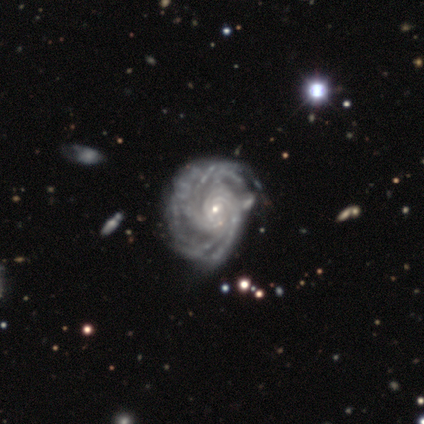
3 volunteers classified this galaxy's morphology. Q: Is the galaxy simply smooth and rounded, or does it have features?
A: featured or disk — 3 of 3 (100%).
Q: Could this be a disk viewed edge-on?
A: no — 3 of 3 (100%).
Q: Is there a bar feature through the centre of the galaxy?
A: no — 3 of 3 (100%).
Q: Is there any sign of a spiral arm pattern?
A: yes — 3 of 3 (100%).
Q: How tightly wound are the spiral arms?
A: tight — 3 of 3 (100%).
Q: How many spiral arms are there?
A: more than 4 — 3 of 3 (100%).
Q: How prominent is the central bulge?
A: small — 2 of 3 (67%).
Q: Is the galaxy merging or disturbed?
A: none — 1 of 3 (33%, tied with minor disturbance and major disturbance).